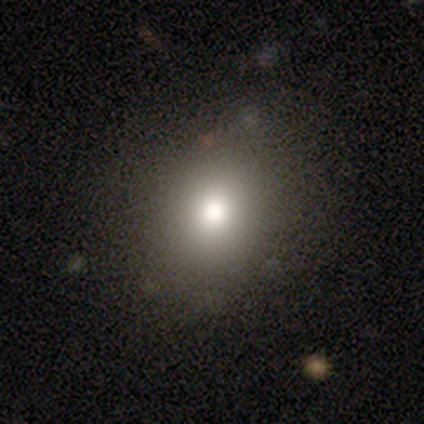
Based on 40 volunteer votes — Overall: smooth (82%). How rounded: round (61%; in between 39%). Merging: none (58%).